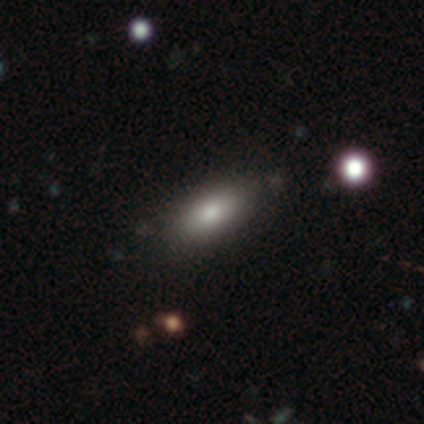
Smooth or featured: smooth — 100%
How rounded: in between — 100%
Merging: none — 100%